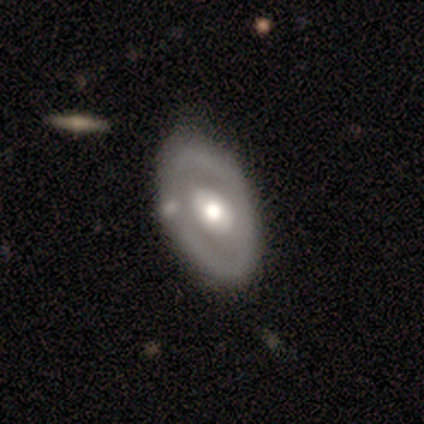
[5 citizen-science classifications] smooth_or_featured: featured or disk (p=0.80) [alt: smooth p=0.20]
disk_edge_on: no (p=1.00)
bar: no (p=1.00)
has_spiral_arms: no (p=0.75) [alt: yes p=0.25]
bulge_size: moderate (p=0.75) [alt: large p=0.25]
merging: none (p=0.60) [alt: minor disturbance p=0.20]